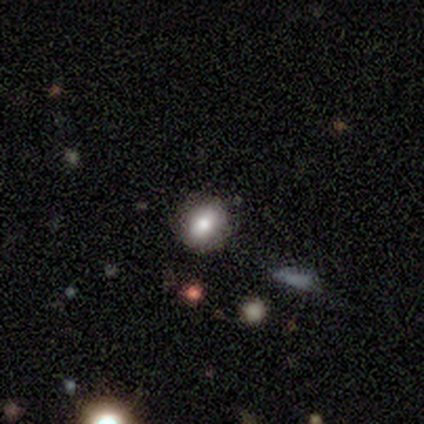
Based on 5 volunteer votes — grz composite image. It shows a smooth galaxy with no disk features (60%) that is in between round and cigar-shaped (100%). Merging: none (67%).